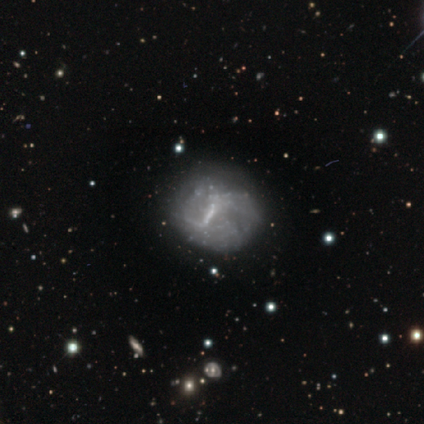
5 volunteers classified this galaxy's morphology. type=featured or disk (80%); edge-on=no (100%); bar=weak (100%); spiral arms=no (75%); bulge=none (75%); merging=none (80%).